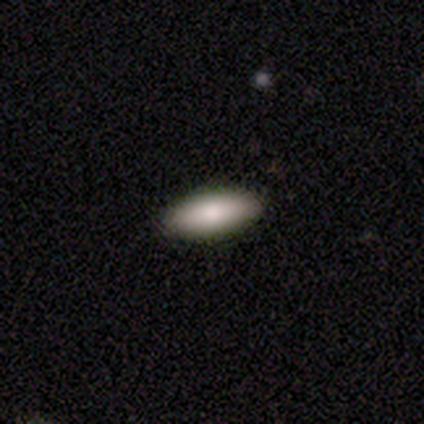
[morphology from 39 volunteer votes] Overall: smooth (79%). How rounded: in between (68%; cigar-shaped 32%). Merging: none (97%).